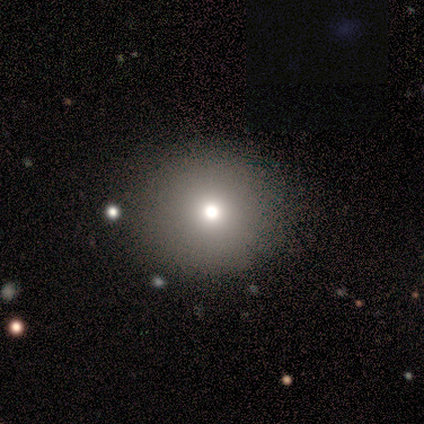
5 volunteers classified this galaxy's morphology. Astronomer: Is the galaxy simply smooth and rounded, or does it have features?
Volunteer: smooth — 60%.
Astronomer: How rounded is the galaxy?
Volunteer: round — 100%.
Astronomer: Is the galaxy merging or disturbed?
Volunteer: none — 75%.